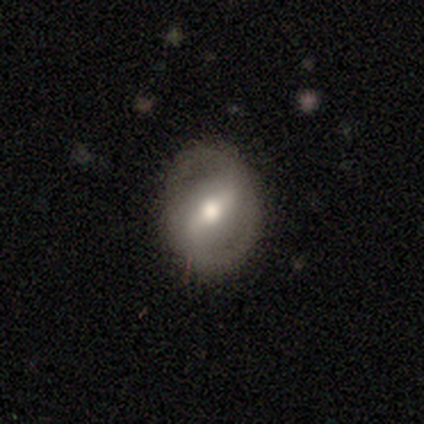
Q: Smooth or featured?
A: featured or disk (79%); runner-up: smooth (13%)
Q: Edge-on disk?
A: no (97%); runner-up: yes (3%)
Q: Bar?
A: weak (53%); runner-up: strong (40%)
Q: Spiral arms?
A: yes (70%); runner-up: no (30%)
Q: Spiral winding?
A: medium (38%); runner-up: loose (33%)
Q: Spiral arm count?
A: 2 (95%); runner-up: can't tell (5%)
Q: Bulge size?
A: moderate (73%); runner-up: large (23%)
Q: Merging?
A: none (89%); runner-up: minor disturbance (11%)